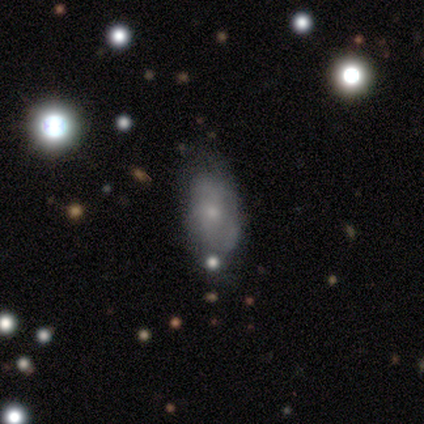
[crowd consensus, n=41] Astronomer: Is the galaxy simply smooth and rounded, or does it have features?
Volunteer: featured or disk — 51% (runner-up: smooth, 44%).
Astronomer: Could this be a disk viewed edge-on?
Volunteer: no — 100%.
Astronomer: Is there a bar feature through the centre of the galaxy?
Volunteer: no — 86%.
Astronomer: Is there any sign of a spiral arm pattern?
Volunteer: no — 67%.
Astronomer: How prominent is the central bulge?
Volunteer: small — 86%.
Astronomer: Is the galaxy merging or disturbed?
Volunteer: none — 51% (runner-up: minor disturbance, 33%).